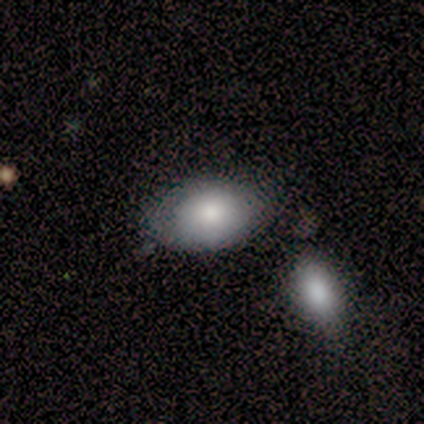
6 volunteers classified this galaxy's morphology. Smooth or featured? smooth (83%)
How rounded? in between (100%)
Merging? none (83%)